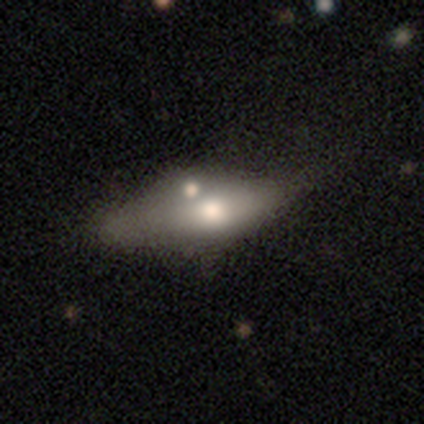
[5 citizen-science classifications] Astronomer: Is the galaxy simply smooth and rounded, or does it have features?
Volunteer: smooth — 80%.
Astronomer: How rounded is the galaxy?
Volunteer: in between — 75%.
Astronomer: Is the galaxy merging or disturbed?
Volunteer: none — 75%.